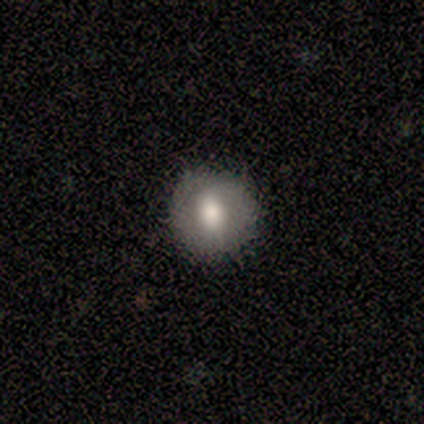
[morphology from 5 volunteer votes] This is clearly a smooth galaxy (80%). How rounded: clearly round (100%). Merging: clearly none (100%).